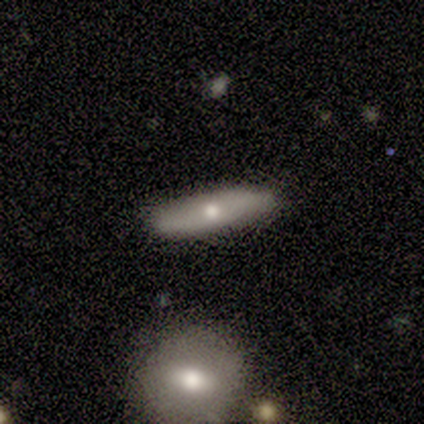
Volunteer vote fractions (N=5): Q: Smooth or featured?
A: smooth (40%); tied with: featured or disk (40%)
Q: How rounded?
A: cigar-shaped (100%)
Q: Merging?
A: none (50%); tied with: minor disturbance (50%)